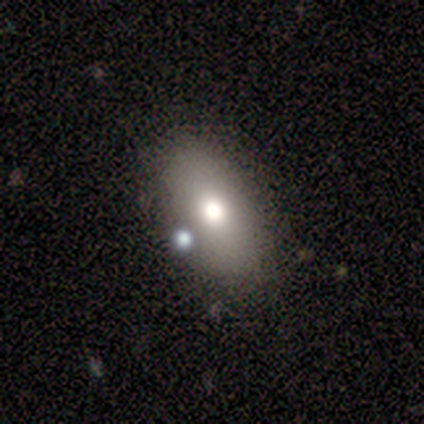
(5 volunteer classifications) A smooth galaxy with no disk features (80%) that is in between round and cigar-shaped (75%). Merging: none (80%).